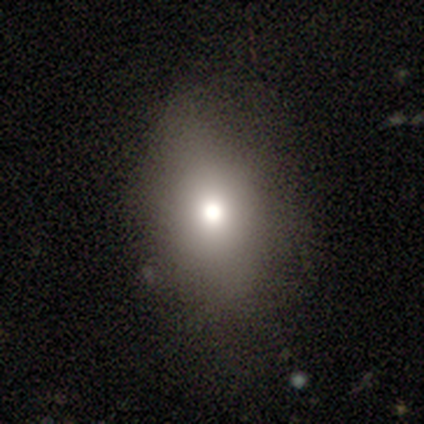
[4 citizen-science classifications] smooth_or_featured: smooth (p=0.75) [alt: featured or disk p=0.25]
how_rounded: in between (p=1.00)
merging: none (p=0.75) [alt: minor disturbance p=0.25]